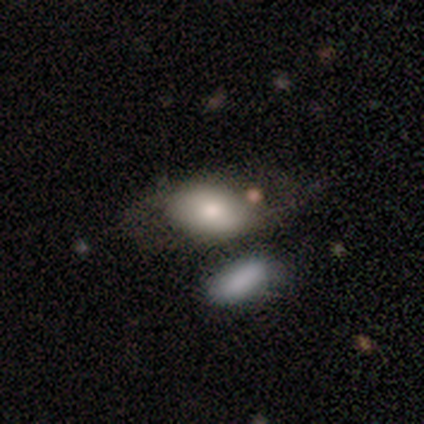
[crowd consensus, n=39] Smooth or featured? smooth (87%)
How rounded? in between (88%)
Merging? merger (51%)